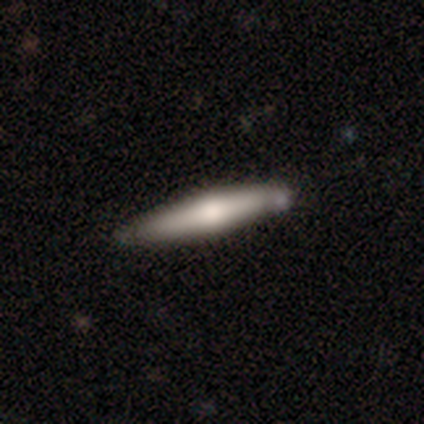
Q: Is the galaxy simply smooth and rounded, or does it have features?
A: smooth — 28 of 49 (57%).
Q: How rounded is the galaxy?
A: cigar-shaped — 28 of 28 (100%).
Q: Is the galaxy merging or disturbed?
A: none — 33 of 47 (70%).